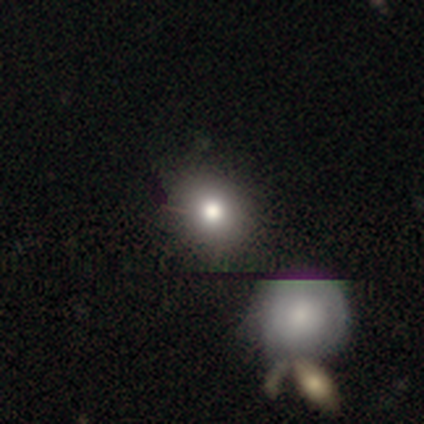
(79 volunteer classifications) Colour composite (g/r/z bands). It shows a smooth galaxy with no disk features (75%) that is round (85%). Merging: none (39%).